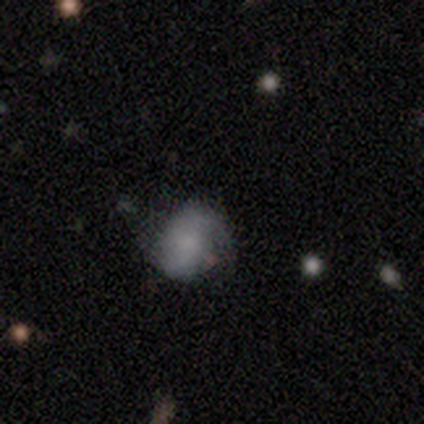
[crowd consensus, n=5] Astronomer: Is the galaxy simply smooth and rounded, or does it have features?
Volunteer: smooth — 60% (runner-up: featured or disk, 40%).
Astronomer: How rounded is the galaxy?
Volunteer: in between — 67%.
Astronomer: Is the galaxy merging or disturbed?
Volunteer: none — 80%.